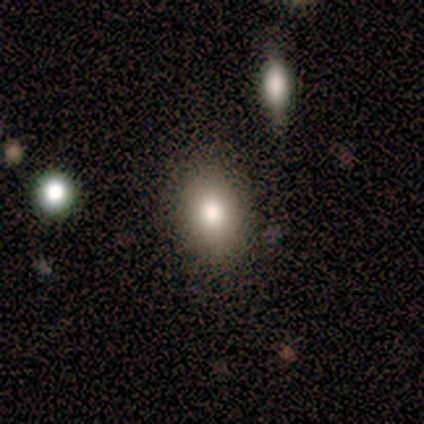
smooth 100%, featured or disk 0%, star or artifact 0%. Down the decision tree: how rounded — in between (100%); merging — none (92%).